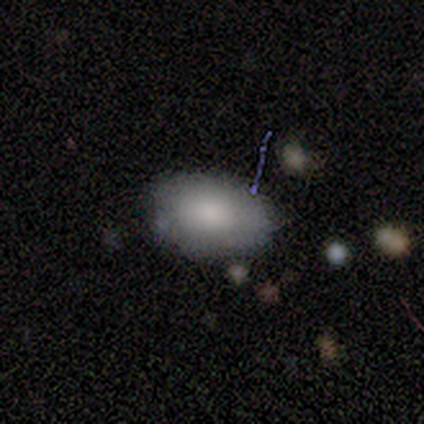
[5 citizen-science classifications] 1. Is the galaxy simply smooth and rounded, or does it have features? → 60% featured or disk, 40% smooth, 0% star or artifact.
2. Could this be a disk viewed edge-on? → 100% no, 0% yes.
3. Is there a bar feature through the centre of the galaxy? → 100% no, 0% strong, 0% weak.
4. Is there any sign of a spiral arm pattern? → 100% no, 0% yes.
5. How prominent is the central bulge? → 100% moderate, 0% dominant, 0% large, 0% small, 0% none.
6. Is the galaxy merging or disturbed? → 80% none, 20% minor disturbance, 0% major disturbance, 0% merger.